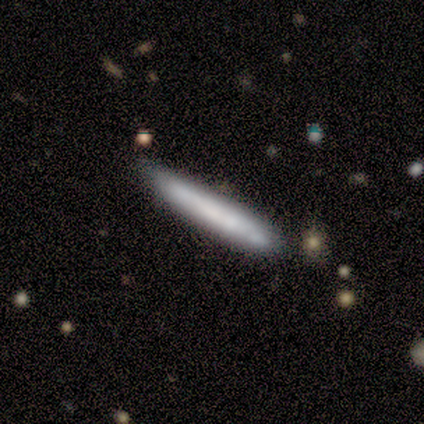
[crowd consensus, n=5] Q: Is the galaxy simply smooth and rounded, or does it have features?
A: smooth — 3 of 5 (60%).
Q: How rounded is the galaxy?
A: cigar-shaped — 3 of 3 (100%).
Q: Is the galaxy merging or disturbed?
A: none — 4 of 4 (100%).